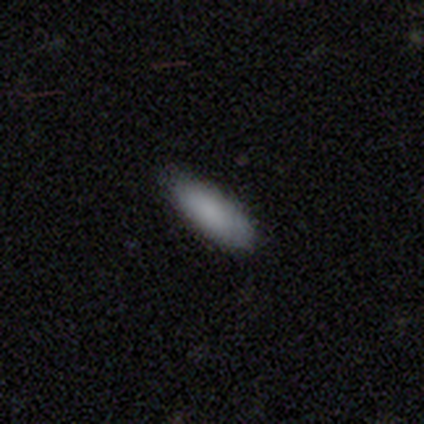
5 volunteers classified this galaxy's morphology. This appears to be a smooth galaxy with no disk features (100%) that is in between round and cigar-shaped (100%). Merging: none (60%).